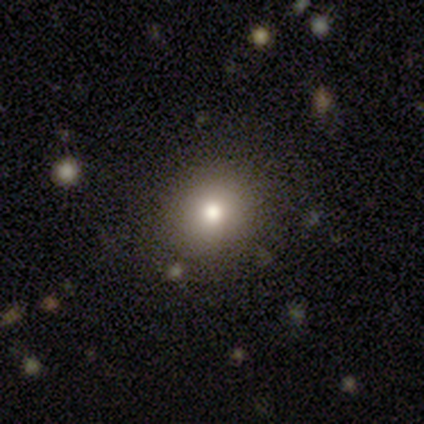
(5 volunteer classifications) A smooth galaxy with no disk features (60%) that is round (100%). Merging: none (100%).